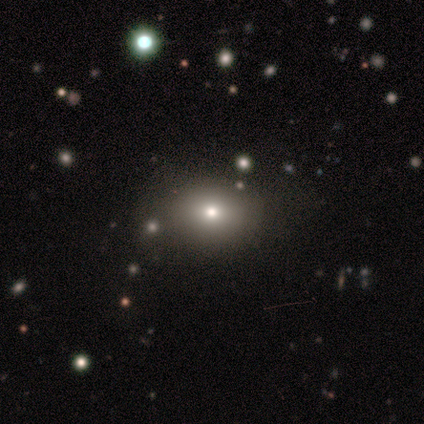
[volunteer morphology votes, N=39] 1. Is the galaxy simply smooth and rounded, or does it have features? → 77% smooth, 18% star or artifact, 5% featured or disk.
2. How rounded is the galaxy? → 63% in between, 37% round, 0% cigar-shaped.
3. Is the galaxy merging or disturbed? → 72% none, 22% minor disturbance, 6% major disturbance, 0% merger.